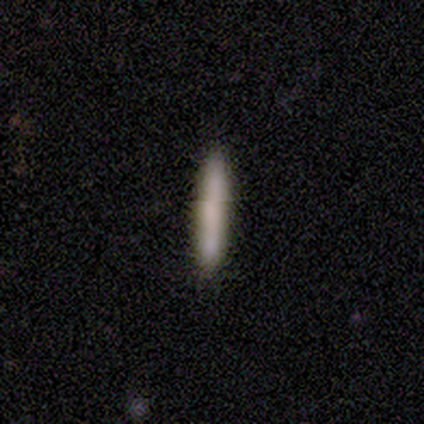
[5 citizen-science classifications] smooth 100%, featured or disk 0%, star or artifact 0%. Down the decision tree: how rounded — cigar-shaped (100%); merging — none (80%).